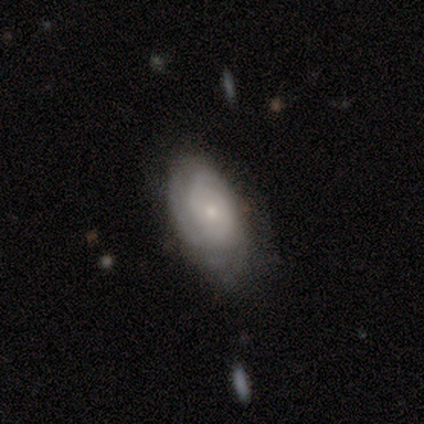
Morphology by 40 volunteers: A featured or disk galaxy (78%) with no bar (74%), tight (59%) spiral arms (94%) and a small central bulge (87%). Merging: none (72%).